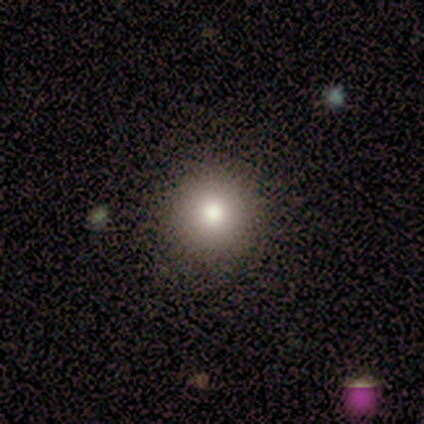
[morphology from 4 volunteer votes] Consensus on every question: smooth or featured — smooth (100%); how rounded — round (100%); merging — none (100%).